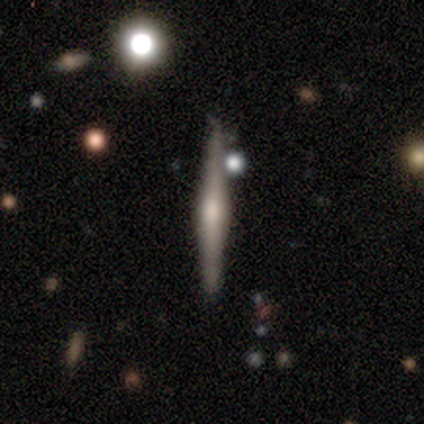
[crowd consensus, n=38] Smooth or featured?
  - featured or disk: 74% *
  - smooth: 26%
  - star or artifact: 0%
Edge-on disk?
  - yes: 100% *
  - no: 0%
Edge-on bulge?
  - rounded: 93% *
  - boxy: 4%
  - none: 4%
Merging?
  - none: 92% *
  - merger: 5%
  - minor disturbance: 3%
  - major disturbance: 0%